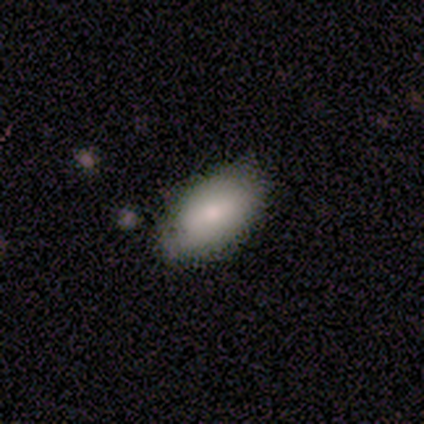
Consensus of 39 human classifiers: Overall: smooth (72%). How rounded: in between (96%). Merging: none (68%; minor disturbance 29%).